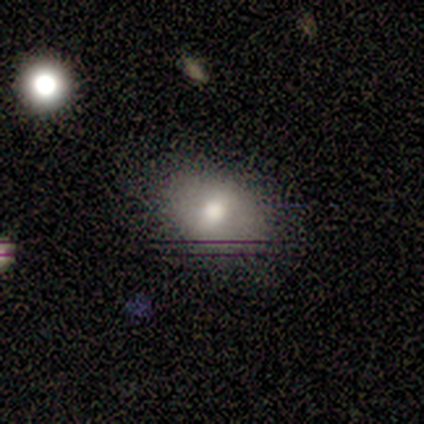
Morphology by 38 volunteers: A smooth galaxy with no disk features (66%) that is in between round and cigar-shaped (60%).

Vote fractions:
- Smooth or featured? smooth: 66% / featured or disk: 21% / star or artifact: 13%
- How rounded? in between: 60% / round: 40% / cigar-shaped: 0%
- Merging? none: 76% / minor disturbance: 24% / major disturbance: 0% / merger: 0%